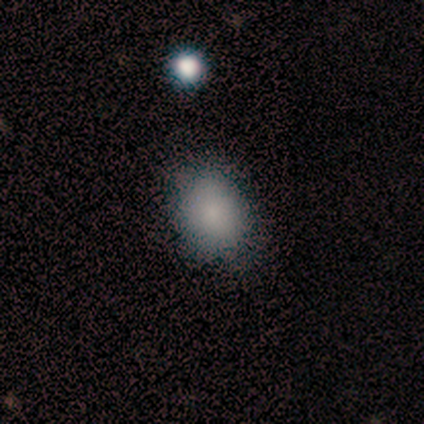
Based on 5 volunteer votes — smooth_or_featured: smooth (p=0.40) [tied with: featured or disk p=0.40]
how_rounded: round (p=0.50) [tied with: in between p=0.50]
merging: none (p=0.50) [tied with: minor disturbance p=0.50]